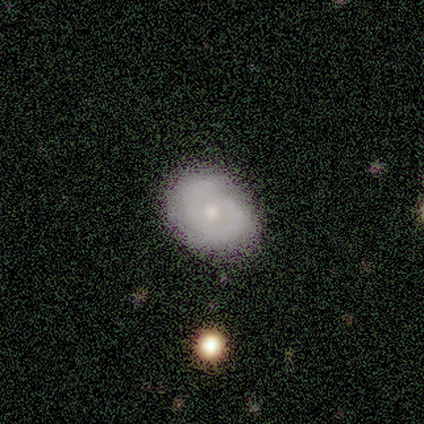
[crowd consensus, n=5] Smooth or featured? 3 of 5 (60%) said featured or disk. Edge-on disk? 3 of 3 (100%) said no. Bar? 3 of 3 (100%) said no. Spiral arms? 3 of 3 (100%) said yes. Spiral winding? 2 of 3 (67%) said tight. Spiral arm count? 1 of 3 (33%, tied with 2 and 4) said 1. Bulge size? 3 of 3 (100%) said small. Merging? 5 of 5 (100%) said none.